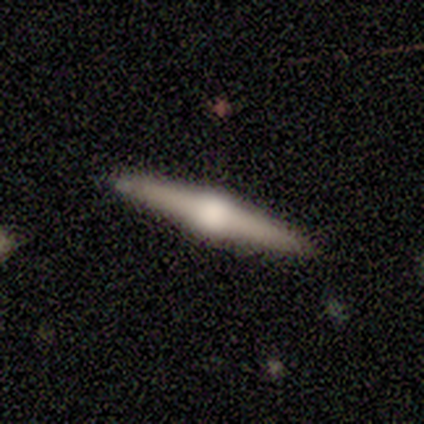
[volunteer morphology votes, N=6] Smooth or featured? featured or disk (67%)
Edge-on disk? yes (100%)
Edge-on bulge? rounded (100%)
Merging? none (100%)